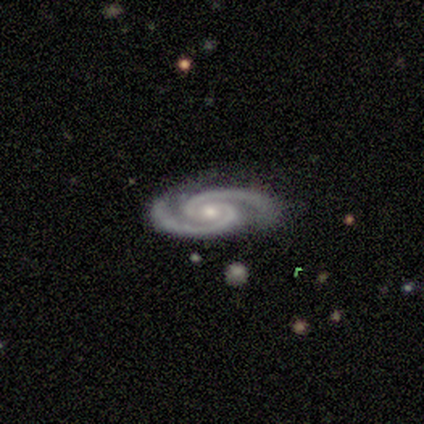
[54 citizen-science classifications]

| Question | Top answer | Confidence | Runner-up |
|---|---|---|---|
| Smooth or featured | featured or disk | 94% | star or artifact (6%) |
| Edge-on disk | no | 98% | yes (2%) |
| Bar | no | 74% | weak (20%) |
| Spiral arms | yes | 100% | — |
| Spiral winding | tight | 56% | medium (40%) |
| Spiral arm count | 2 | 100% | — |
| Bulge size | moderate | 50% | small (48%) |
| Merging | none | 82% | minor disturbance (12%) |